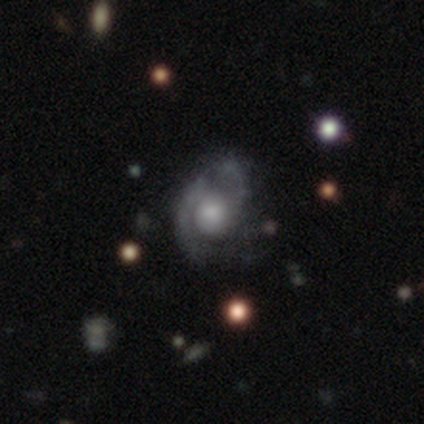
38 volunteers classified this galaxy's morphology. Smooth or featured: featured or disk — 76% (smooth — 21%)
Edge-on disk: no — 100%
Bar: no — 86% (weak — 10%)
Spiral arms: yes — 93% (no — 7%)
Spiral winding: medium — 52% (tight — 30%)
Spiral arm count: 2 — 81% (1 — 7%)
Bulge size: large — 38% (small — 28%)
Merging: none — 51% (minor disturbance — 27%)